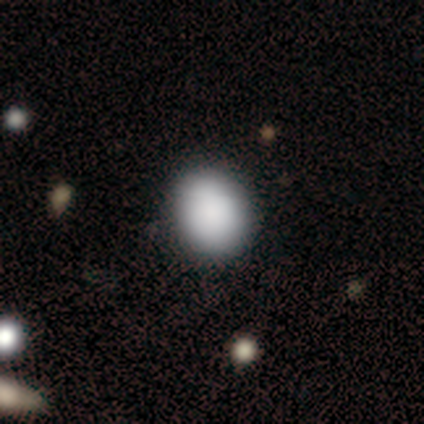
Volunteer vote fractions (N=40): smooth-or-featured: smooth: 85% | featured or disk: 8% | star or artifact: 8%
  how-rounded: round: 76% | in between: 24% | cigar-shaped: 0%
  merging: none: 81% | minor disturbance: 14% | major disturbance: 3% | merger: 3%